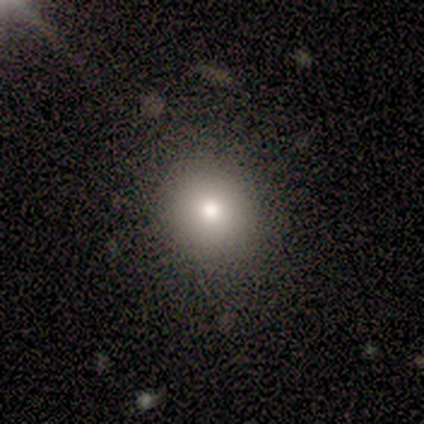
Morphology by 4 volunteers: smooth 75%, featured or disk 25%, star or artifact 0%. Down the decision tree: how rounded — round (100%); merging — none (100%).